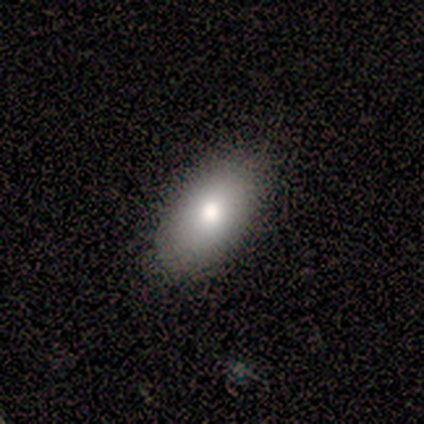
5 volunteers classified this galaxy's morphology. smooth-or-featured: smooth: 80% | featured or disk: 20% | star or artifact: 0%
  how-rounded: in between: 100% | round: 0% | cigar-shaped: 0%
  merging: none: 100% | minor disturbance: 0% | major disturbance: 0% | merger: 0%